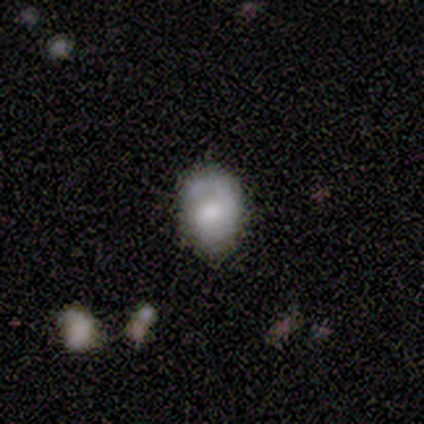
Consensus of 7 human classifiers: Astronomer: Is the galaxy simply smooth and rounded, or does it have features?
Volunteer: smooth — 86%.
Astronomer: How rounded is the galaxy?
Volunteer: in between — 67%.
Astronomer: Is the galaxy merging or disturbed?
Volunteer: none — 43%, tied with minor disturbance at 43%.